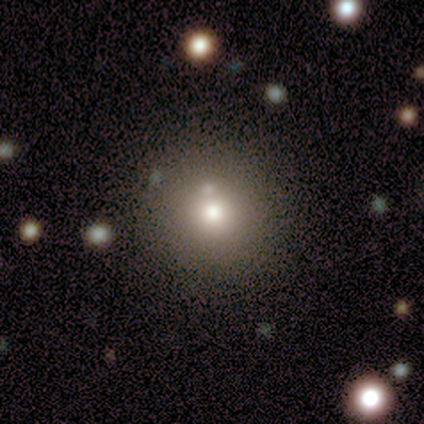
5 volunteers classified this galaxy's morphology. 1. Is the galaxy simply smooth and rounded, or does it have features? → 80% smooth, 20% featured or disk, 0% star or artifact.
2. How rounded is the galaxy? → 100% round, 0% in between, 0% cigar-shaped.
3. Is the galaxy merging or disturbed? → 100% none, 0% minor disturbance, 0% major disturbance, 0% merger.